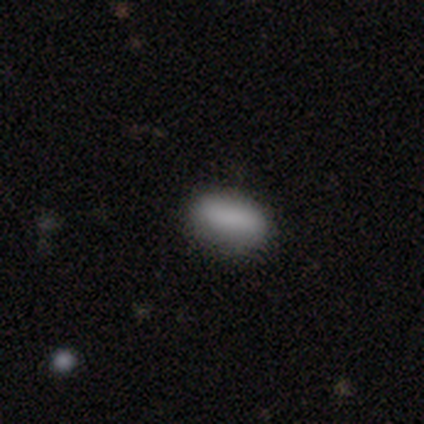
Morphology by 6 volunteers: type=smooth (83%); roundness=in between (100%); merging=none (100%).